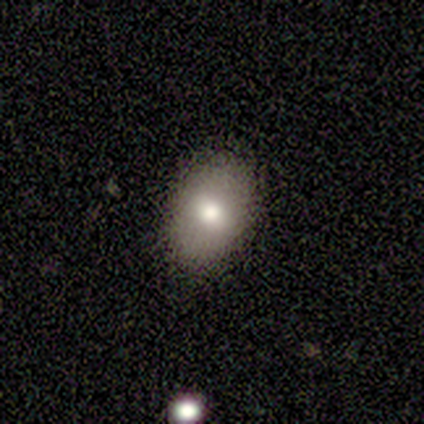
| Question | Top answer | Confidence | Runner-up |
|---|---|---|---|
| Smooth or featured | smooth | 100% | — |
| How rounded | in between | 80% | round (20%) |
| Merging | none | 80% | minor disturbance (20%) |